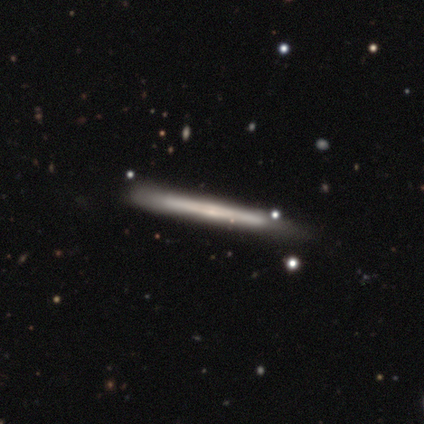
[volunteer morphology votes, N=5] A featured or disk galaxy (80%) viewed edge-on (100%) with no central bulge (100%).

Vote fractions:
- Smooth or featured? featured or disk: 80% / star or artifact: 20% / smooth: 0%
- Edge-on disk? yes: 100% / no: 0%
- Edge-on bulge? none: 100% / boxy: 0% / rounded: 0%
- Merging? none: 50% (tied) / minor disturbance: 50% (tied) / major disturbance: 0% / merger: 0%